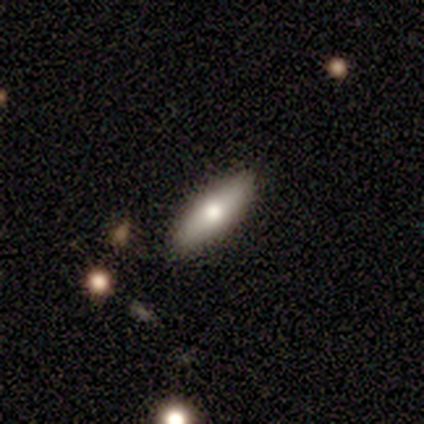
smooth 75%, featured or disk 25%, star or artifact 0%. Down the decision tree: how rounded — in between (67%); merging — none (75%).